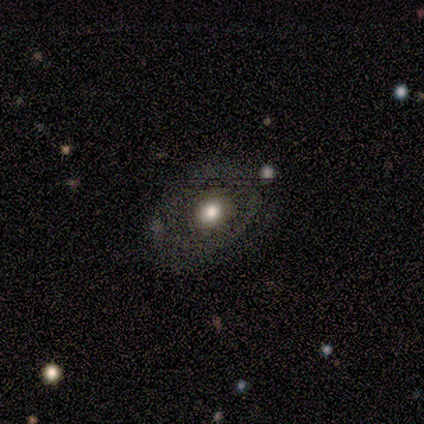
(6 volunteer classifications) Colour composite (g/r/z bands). It shows a featured or disk galaxy (67%) with no bar (100%), 2 (50%, tied with can't tell) medium (50%, tied with loose) spiral arms (50%, tied with no) and a moderate central bulge (100%). Merging: none (83%).